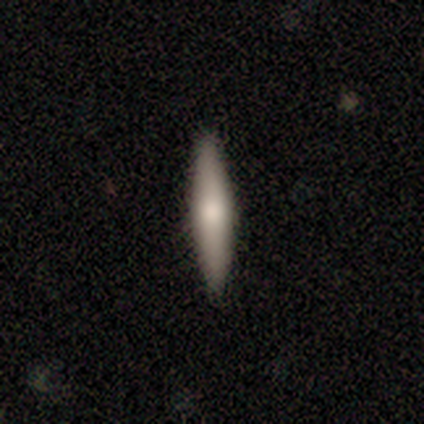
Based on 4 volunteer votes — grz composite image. It shows a smooth galaxy with no disk features (50%, tied with featured or disk) that is cigar-shaped (100%). Merging: none (75%).